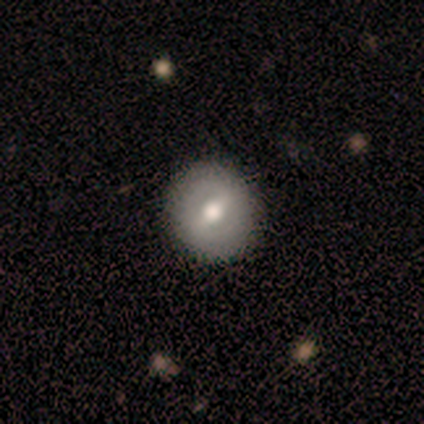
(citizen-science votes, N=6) Q: Smooth or featured?
A: smooth (67%); runner-up: featured or disk (33%)
Q: How rounded?
A: round (75%); runner-up: in between (25%)
Q: Merging?
A: none (100%)